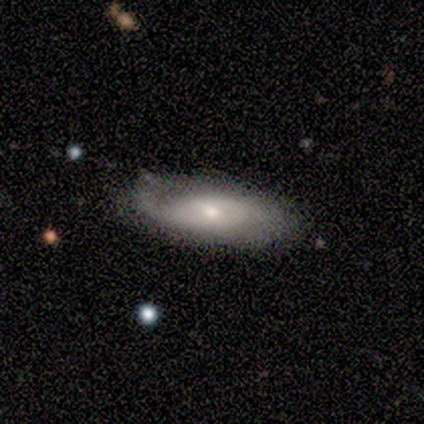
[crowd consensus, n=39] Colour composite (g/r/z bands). It shows a smooth galaxy with no disk features (49%, tied with featured or disk) that is in between round and cigar-shaped (74%). Merging: none (79%).